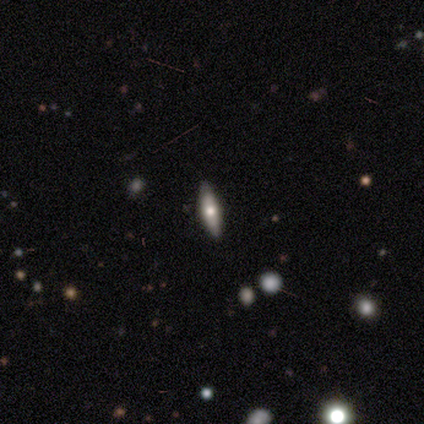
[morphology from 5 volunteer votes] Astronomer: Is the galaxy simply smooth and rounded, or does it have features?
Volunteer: featured or disk — 80%.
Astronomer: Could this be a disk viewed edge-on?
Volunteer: yes — 75%.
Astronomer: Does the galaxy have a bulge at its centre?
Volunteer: rounded — 100%.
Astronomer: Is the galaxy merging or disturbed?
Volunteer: none — 80%.